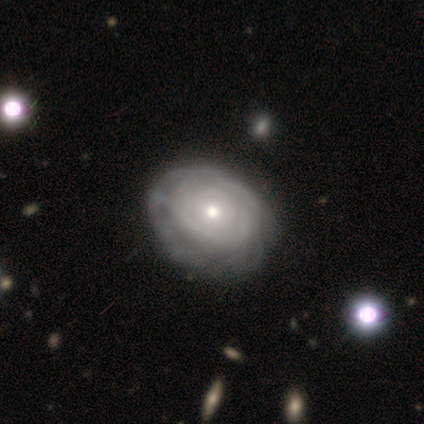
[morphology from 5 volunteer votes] This appears to be a featured or disk galaxy (80%) with no bar (100%), tight (100%) spiral arms (50%, tied with no) and a moderate central bulge (50%, tied with small). Merging: minor disturbance (60%).